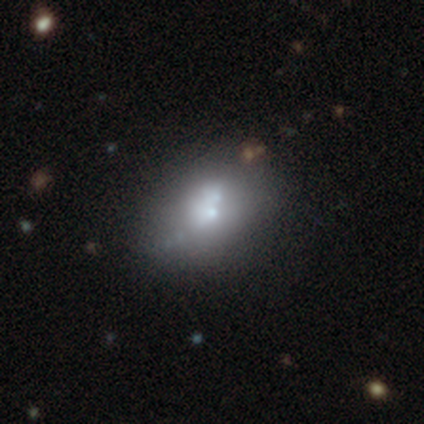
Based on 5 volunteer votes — smooth-or-featured: featured or disk: 80% | smooth: 20% | star or artifact: 0%
  disk-edge-on: no: 100% | yes: 0%
    bar: no: 100% | strong: 0% | weak: 0%
    has-spiral-arms: no: 100% | yes: 0%
    bulge-size: large: 25% (tied) | moderate: 25% (tied) | small: 25% (tied) | none: 25% (tied) | dominant: 0%
  merging: none: 60% | minor disturbance: 20% | major disturbance: 20% | merger: 0%